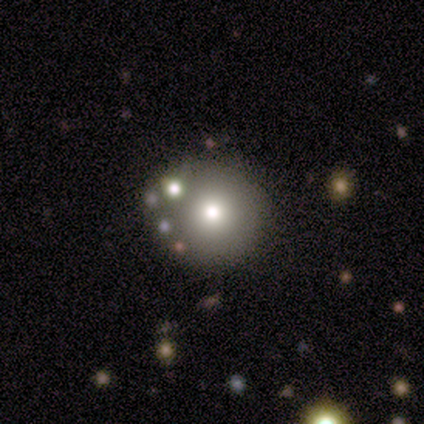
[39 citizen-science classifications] A smooth galaxy with no disk features (62%) that is round (88%).

Vote fractions:
- Smooth or featured? smooth: 62% / featured or disk: 26% / star or artifact: 13%
- How rounded? round: 88% / in between: 12% / cigar-shaped: 0%
- Merging? none: 82% / minor disturbance: 9% / merger: 6% / major disturbance: 3%